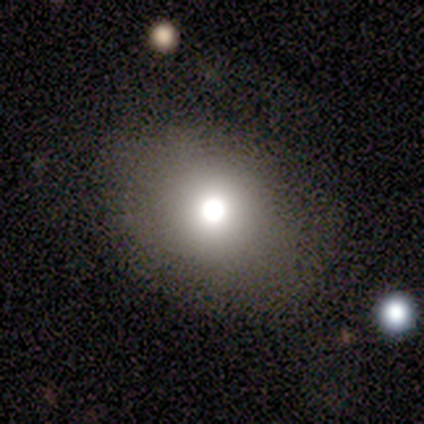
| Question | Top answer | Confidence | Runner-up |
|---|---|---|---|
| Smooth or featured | smooth | 60% | featured or disk (20%) |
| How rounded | in between | 67% | round (33%) |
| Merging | none | 75% | major disturbance (25%) |